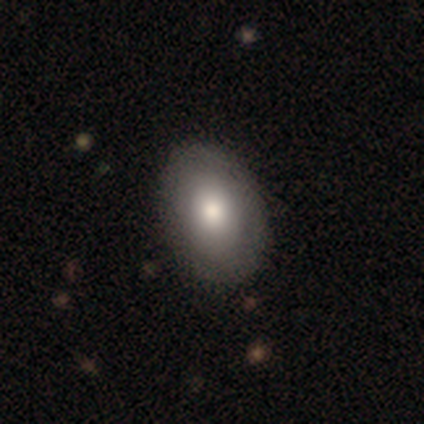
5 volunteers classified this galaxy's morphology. This appears to be a smooth galaxy with no disk features (40%, tied with featured or disk) that is in between round and cigar-shaped (100%). Merging: none (75%).